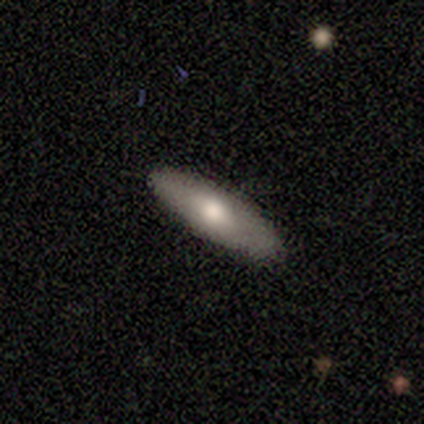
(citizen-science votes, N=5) smooth-or-featured: featured or disk: 60% | smooth: 40% | star or artifact: 0%
  disk-edge-on: yes: 100% | no: 0%
    edge-on-bulge: rounded: 100% | boxy: 0% | none: 0%
  merging: none: 80% | minor disturbance: 20% | major disturbance: 0% | merger: 0%